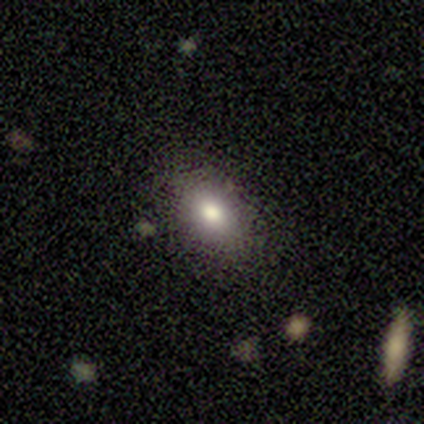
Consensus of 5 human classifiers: A smooth galaxy with no disk features (80%) that is in between round and cigar-shaped (100%). Merging: none (80%).